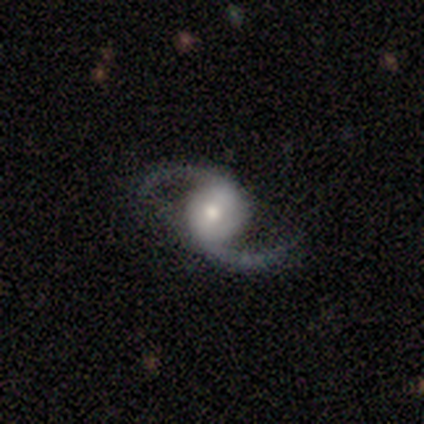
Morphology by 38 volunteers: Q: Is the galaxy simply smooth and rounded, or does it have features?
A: featured or disk — 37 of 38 (97%).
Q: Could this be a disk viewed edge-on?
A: no — 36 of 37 (97%).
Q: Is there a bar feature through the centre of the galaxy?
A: weak — 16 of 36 (44%).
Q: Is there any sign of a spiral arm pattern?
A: yes — 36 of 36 (100%).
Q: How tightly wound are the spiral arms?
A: loose — 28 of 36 (78%).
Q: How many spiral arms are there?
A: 2 — 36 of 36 (100%).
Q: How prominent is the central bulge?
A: moderate — 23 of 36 (64%).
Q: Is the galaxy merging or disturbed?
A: none — 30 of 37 (81%).